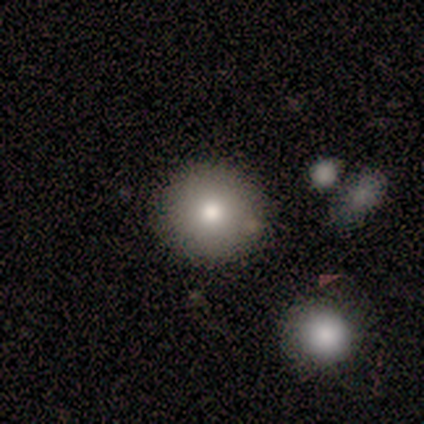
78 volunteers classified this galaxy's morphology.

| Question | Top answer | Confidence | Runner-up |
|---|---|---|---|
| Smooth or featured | smooth | 76% | featured or disk (17%) |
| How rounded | round | 97% | in between (3%) |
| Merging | none | 49% | merger (6%) |